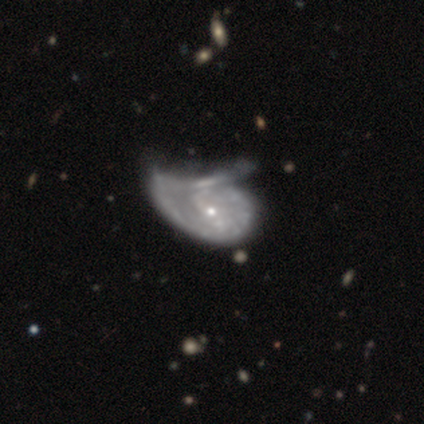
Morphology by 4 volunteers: Smooth or featured? featured or disk (75%)
Edge-on disk? no (100%)
Bar? weak (67%)
Spiral arms? no (100%)
Bulge size? small (100%)
Merging? major disturbance (50%)